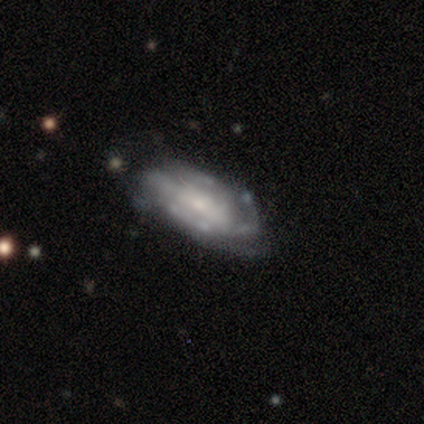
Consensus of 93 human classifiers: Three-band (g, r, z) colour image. It shows a featured or disk galaxy (71%) with no bar (45%), tight (51%) spiral arms (77%) and a small central bulge (47%). Merging: minor disturbance (42%).